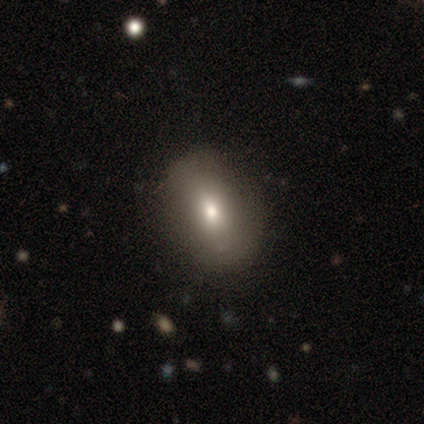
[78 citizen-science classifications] This is likely a smooth galaxy (77%). How rounded: likely in between (78%). Merging: possibly none (47%).